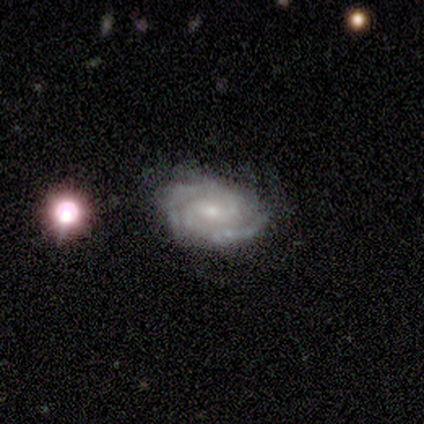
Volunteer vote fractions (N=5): Smooth or featured? 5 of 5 (100%) said featured or disk. Edge-on disk? 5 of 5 (100%) said no. Bar? 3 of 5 (60%) said weak. Spiral arms? 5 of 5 (100%) said yes. Spiral winding? 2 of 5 (40%, tied with medium) said tight. Spiral arm count? 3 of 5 (60%) said 2. Bulge size? 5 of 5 (100%) said small. Merging? 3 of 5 (60%) said none.